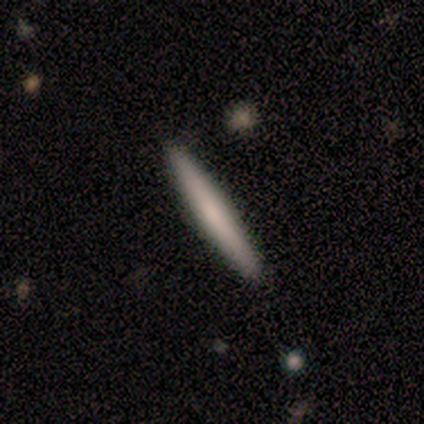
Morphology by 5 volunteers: This appears to be a smooth galaxy with no disk features (80%) that is cigar-shaped (100%). Merging: none (80%).